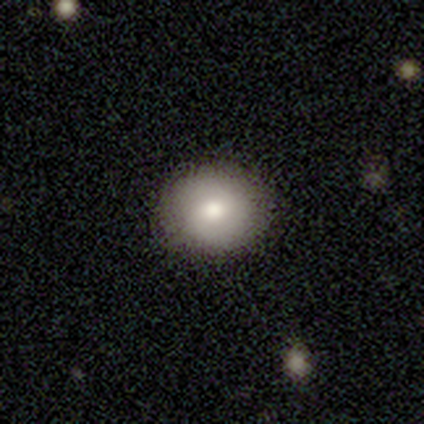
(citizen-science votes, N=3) smooth-or-featured: smooth: 67% | featured or disk: 33% | star or artifact: 0%
  how-rounded: round: 50% (tied) | in between: 50% (tied) | cigar-shaped: 0%
  merging: none: 100% | minor disturbance: 0% | major disturbance: 0% | merger: 0%